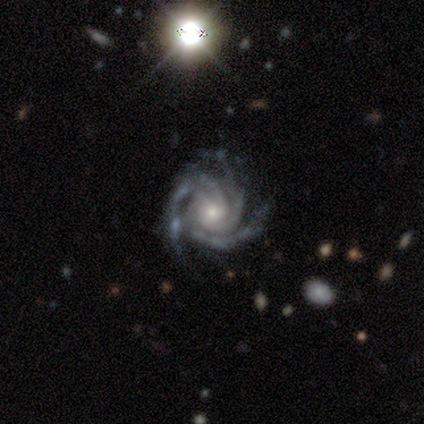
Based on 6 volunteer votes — Smooth or featured? featured or disk (100%)
Edge-on disk? no (100%)
Bar? no (100%)
Spiral arms? yes (100%)
Spiral winding? tight (100%)
Spiral arm count? 4 (83%)
Bulge size? moderate (50%, tied with small)
Merging? none (83%)